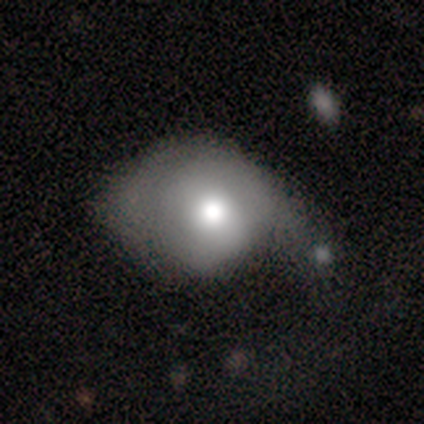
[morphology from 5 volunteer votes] Volunteers were most divided on "smooth or featured" (2-way tie): smooth: 40%, featured or disk: 40%, star or artifact: 20%. More confident: how rounded — in between (100%); merging — minor disturbance (75%).